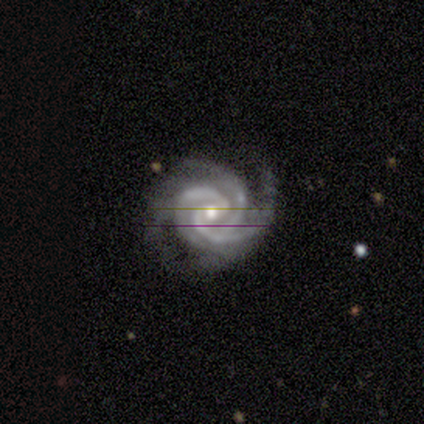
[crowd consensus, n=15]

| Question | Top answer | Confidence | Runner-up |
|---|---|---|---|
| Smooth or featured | featured or disk | 93% | star or artifact (7%) |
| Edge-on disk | no | 100% | — |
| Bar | weak | 50% | no (43%) |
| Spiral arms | yes | 100% | — |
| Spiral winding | tight | 64% | medium (36%) |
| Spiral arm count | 3 | 93% | 4 (7%) |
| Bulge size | moderate | 57% | small (43%) |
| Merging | none | 79% | minor disturbance (21%) |